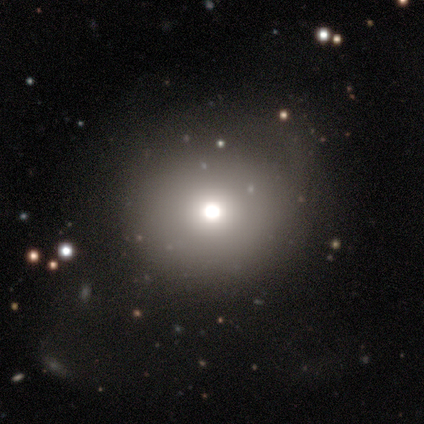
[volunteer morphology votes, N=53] Smooth or featured? 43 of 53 (81%) said smooth. How rounded? 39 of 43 (91%) said round. Merging? 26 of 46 (57%) said none.